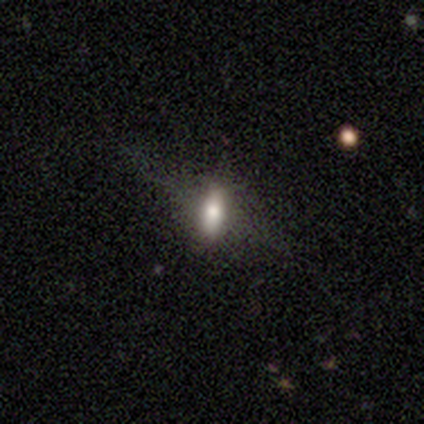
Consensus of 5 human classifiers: A smooth galaxy with no disk features (60%) that is in between round and cigar-shaped (67%).

Vote fractions:
- Smooth or featured? smooth: 60% / featured or disk: 20% / star or artifact: 20%
- How rounded? in between: 67% / cigar-shaped: 33% / round: 0%
- Merging? none: 75% / minor disturbance: 25% / major disturbance: 0% / merger: 0%